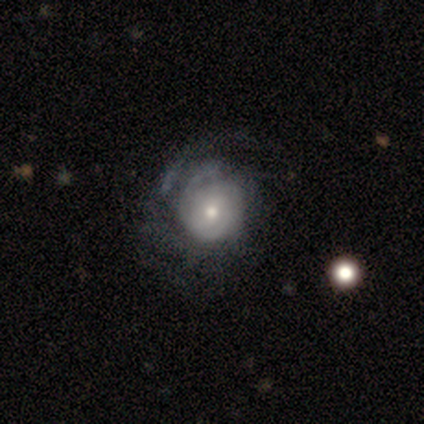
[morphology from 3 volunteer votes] Smooth or featured? featured or disk (100%)
Edge-on disk? no (100%)
Bar? no (100%)
Spiral arms? yes (100%)
Spiral winding? medium (67%)
Spiral arm count? can't tell (67%)
Bulge size? moderate (67%)
Merging? none (33%, tied with major disturbance and merger)